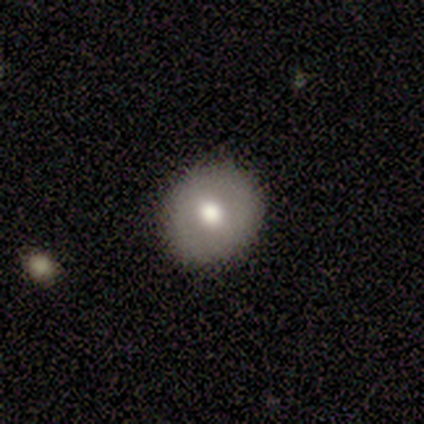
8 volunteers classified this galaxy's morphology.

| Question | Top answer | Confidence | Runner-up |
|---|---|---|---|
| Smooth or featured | smooth | 62% | featured or disk (38%) |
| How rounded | round | 100% | — |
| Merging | none | 100% | — |